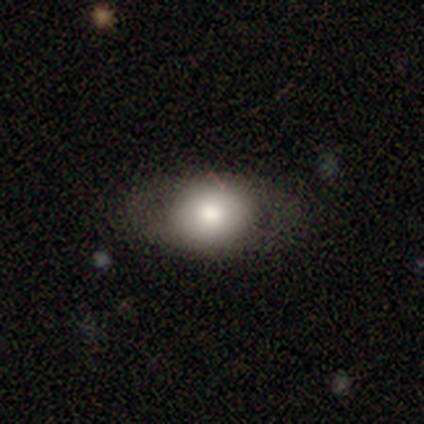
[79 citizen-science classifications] Smooth or featured: smooth — 75% (featured or disk — 20%)
How rounded: in between — 63% (round — 34%)
Merging: none — 79% (minor disturbance — 16%)